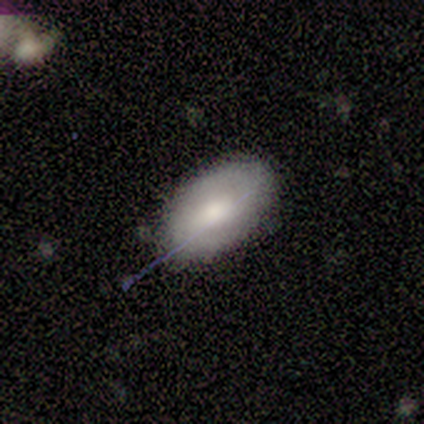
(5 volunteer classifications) Overall: smooth (100%). How rounded: in between (100%). Merging: none (80%).